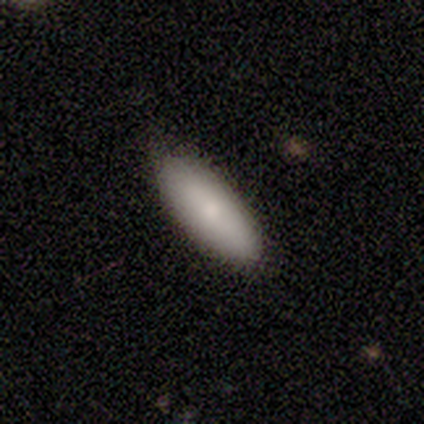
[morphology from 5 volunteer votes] Smooth or featured: smooth — 80% (featured or disk — 20%)
How rounded: in between — 75% (cigar-shaped — 25%)
Merging: none — 100%